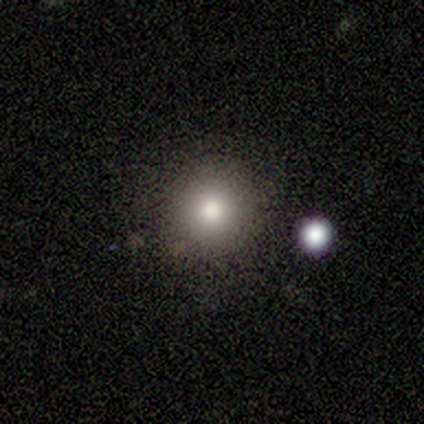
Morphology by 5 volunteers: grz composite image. It shows a smooth galaxy with no disk features (80%) that is round (75%). Merging: none (100%).